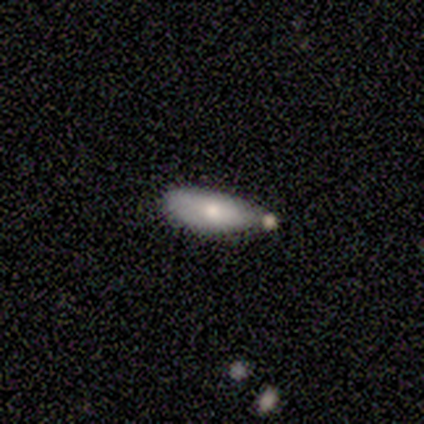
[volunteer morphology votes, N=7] Smooth or featured? 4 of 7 (57%) said smooth. How rounded? 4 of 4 (100%) said in between. Merging? 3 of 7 (43%) said none.